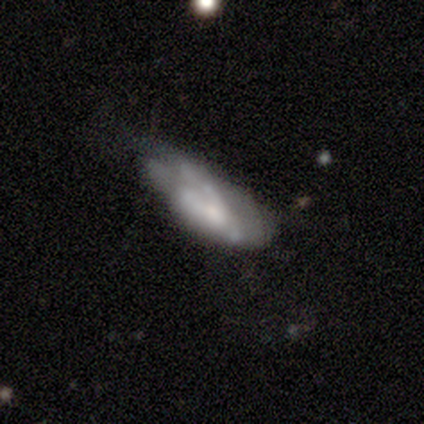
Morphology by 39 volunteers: Q: Smooth or featured?
A: featured or disk (62%); runner-up: smooth (33%)
Q: Edge-on disk?
A: no (100%)
Q: Bar?
A: no (92%); runner-up: weak (8%)
Q: Spiral arms?
A: no (58%); runner-up: yes (42%)
Q: Bulge size?
A: small (38%); runner-up: moderate (29%)
Q: Merging?
A: minor disturbance (43%); runner-up: major disturbance (38%)